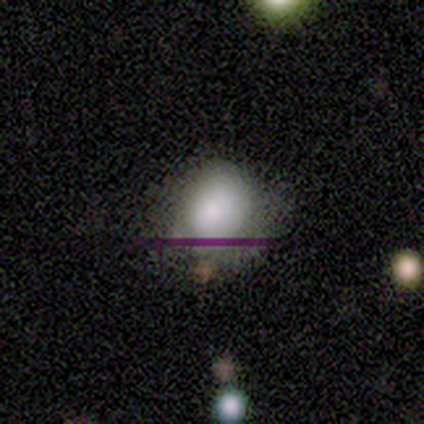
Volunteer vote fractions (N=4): Morphology: type=smooth (100%); roundness=round (50%, tied with in between); merging=none (50%).